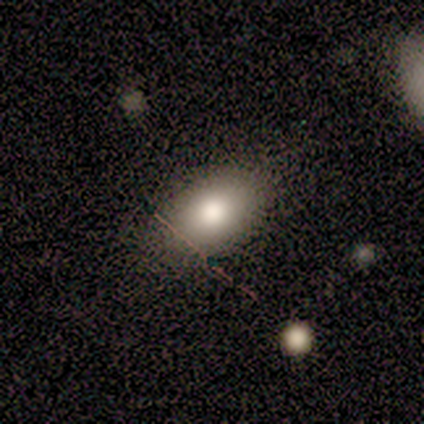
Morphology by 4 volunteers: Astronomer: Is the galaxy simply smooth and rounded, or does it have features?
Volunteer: smooth — 75%.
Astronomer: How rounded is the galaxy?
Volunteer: in between — 67%.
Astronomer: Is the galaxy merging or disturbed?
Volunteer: none — 67%.